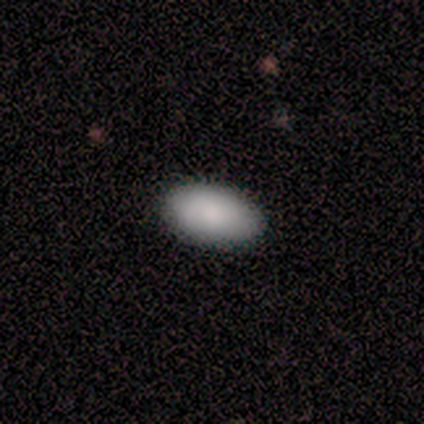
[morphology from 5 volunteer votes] This appears to be a smooth galaxy with no disk features (100%) that is in between round and cigar-shaped (100%). Merging: none (80%).